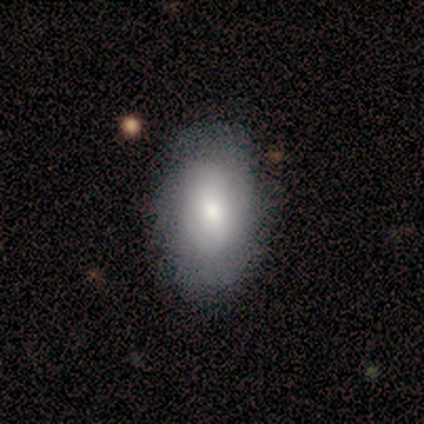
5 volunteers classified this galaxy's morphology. Smooth or featured?
  - featured or disk: 80% *
  - smooth: 20%
  - star or artifact: 0%
Edge-on disk?
  - no: 75% *
  - yes: 25%
Bar?
  - no: 100% *
  - strong: 0%
  - weak: 0%
Spiral arms?
  - no: 67% *
  - yes: 33%
Bulge size?
  - moderate: 67% *
  - small: 33%
  - dominant: 0%
  - large: 0%
  - none: 0%
Merging?
  - none: 60% *
  - minor disturbance: 20%
  - major disturbance: 20%
  - merger: 0%